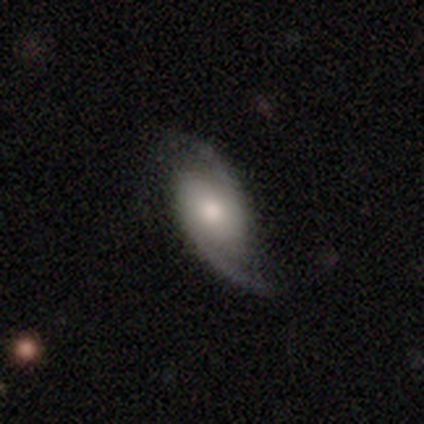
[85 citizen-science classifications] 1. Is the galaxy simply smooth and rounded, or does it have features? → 89% featured or disk, 8% smooth, 2% star or artifact.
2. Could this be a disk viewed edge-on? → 96% no, 4% yes.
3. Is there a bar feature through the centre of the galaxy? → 59% no, 34% weak, 7% strong.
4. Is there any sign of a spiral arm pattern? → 95% yes, 5% no.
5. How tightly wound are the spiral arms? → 55% loose, 35% medium, 10% tight.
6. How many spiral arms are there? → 96% 2, 3% can't tell, 1% 1, 0% 3, 0% 4, 0% more than 4.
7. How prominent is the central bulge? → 55% moderate, 27% small, 15% large, 3% none, 0% dominant.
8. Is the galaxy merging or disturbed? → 70% none, 19% minor disturbance, 11% major disturbance, 0% merger.